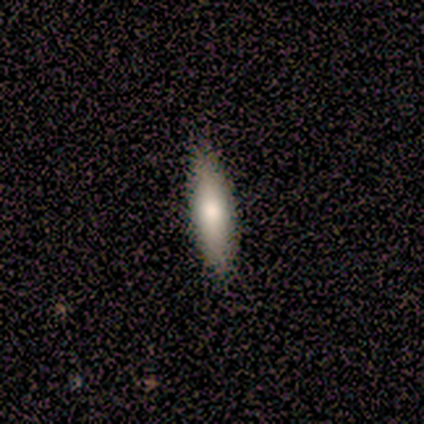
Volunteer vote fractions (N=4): This appears to be a smooth galaxy with no disk features (100%) that is cigar-shaped (100%). Merging: none (100%).